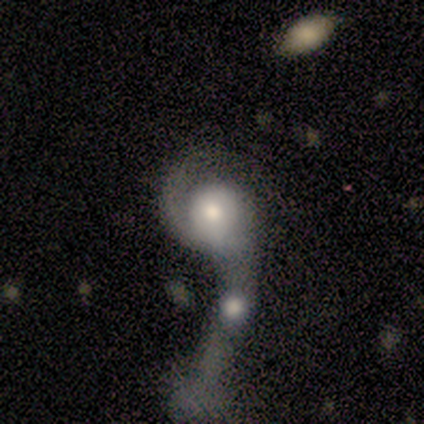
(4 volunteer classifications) smooth_or_featured: featured or disk (p=1.00)
disk_edge_on: no (p=1.00)
bar: no (p=0.75) [alt: weak p=0.25]
has_spiral_arms: yes (p=1.00)
spiral_winding: loose (p=0.50) [alt: tight p=0.25]
spiral_arm_count: 1 (p=0.75) [alt: 2 p=0.25]
bulge_size: moderate (p=0.50) [alt: dominant p=0.25]
merging: major disturbance (p=0.75) [alt: merger p=0.25]